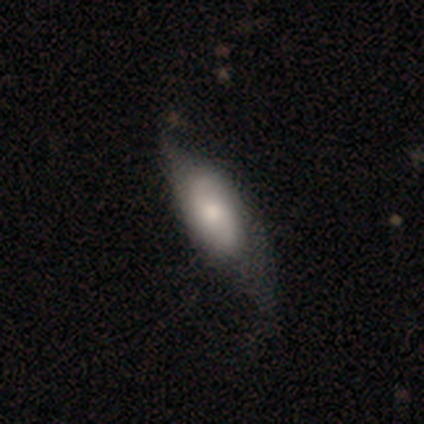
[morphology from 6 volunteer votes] Smooth or featured: smooth — 50% (tied with featured or disk — 50%)
How rounded: in between — 100%
Merging: minor disturbance — 83% (none — 17%)